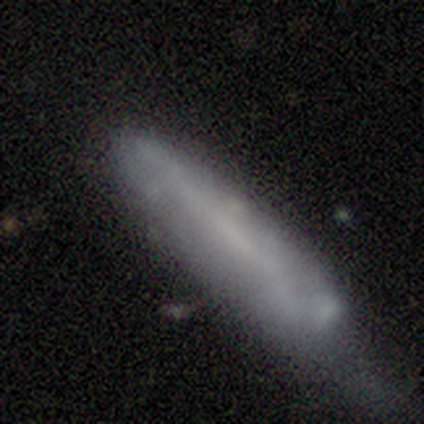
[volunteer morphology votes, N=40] This appears to be a smooth galaxy with no disk features (68%) that is cigar-shaped (70%). Merging: minor disturbance (48%).